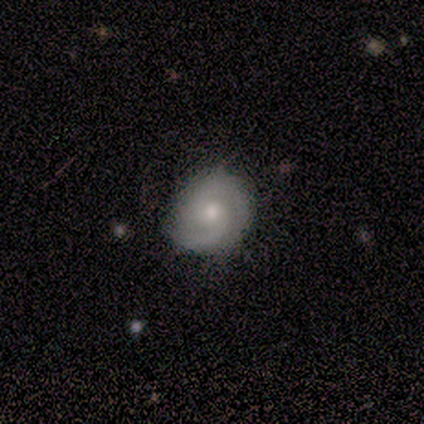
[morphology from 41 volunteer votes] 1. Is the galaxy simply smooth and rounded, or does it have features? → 80% featured or disk, 17% smooth, 2% star or artifact.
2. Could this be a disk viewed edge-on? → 100% no, 0% yes.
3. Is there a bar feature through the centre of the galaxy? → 82% no, 18% weak, 0% strong.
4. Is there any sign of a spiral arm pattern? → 91% yes, 9% no.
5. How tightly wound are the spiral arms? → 50% tight, 27% medium, 23% loose.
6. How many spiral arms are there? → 80% 2, 13% can't tell, 3% 1, 3% 3, 0% 4, 0% more than 4.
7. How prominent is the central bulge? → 67% moderate, 27% small, 3% dominant, 3% none, 0% large.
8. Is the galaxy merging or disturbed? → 68% none, 32% minor disturbance, 0% major disturbance, 0% merger.